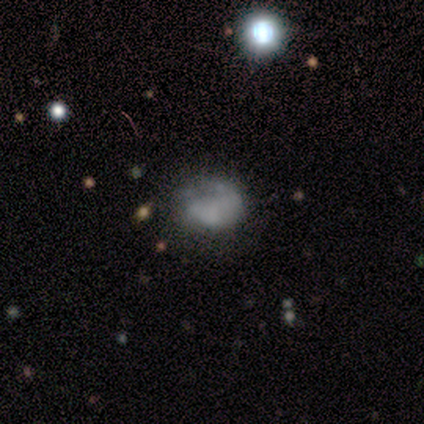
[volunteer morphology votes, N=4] This is likely a smooth galaxy (75%). How rounded: likely in between (67%). Merging: possibly major disturbance (50%).